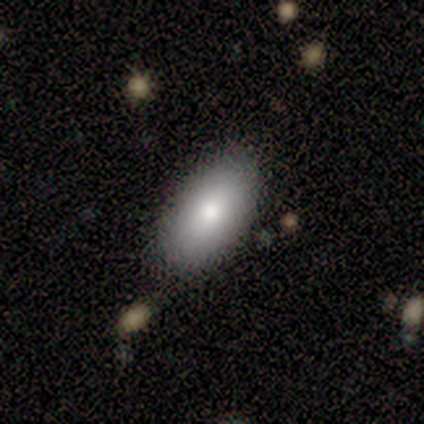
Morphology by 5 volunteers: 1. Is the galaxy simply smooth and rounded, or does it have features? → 80% smooth, 20% featured or disk, 0% star or artifact.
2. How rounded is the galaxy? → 100% in between, 0% round, 0% cigar-shaped.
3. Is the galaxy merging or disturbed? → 80% none, 20% minor disturbance, 0% major disturbance, 0% merger.